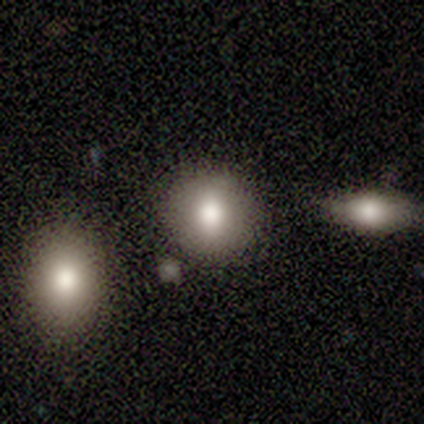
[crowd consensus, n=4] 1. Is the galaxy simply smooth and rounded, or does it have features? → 75% smooth, 25% star or artifact, 0% featured or disk.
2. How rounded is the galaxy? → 67% round, 33% in between, 0% cigar-shaped.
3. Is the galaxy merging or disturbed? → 100% none, 0% minor disturbance, 0% major disturbance, 0% merger.